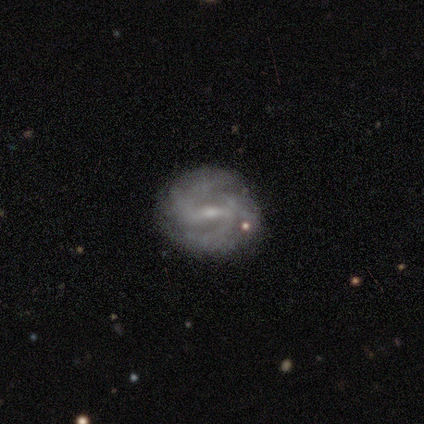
smooth_or_featured: featured or disk (p=1.00)
disk_edge_on: no (p=1.00)
bar: weak (p=0.60) [alt: strong p=0.40]
has_spiral_arms: yes (p=1.00)
spiral_winding: tight (p=0.40) [tied with: medium p=0.40]
spiral_arm_count: 2 (p=0.80) [alt: 4 p=0.20]
bulge_size: small (p=0.60) [alt: moderate p=0.40]
merging: none (p=1.00)